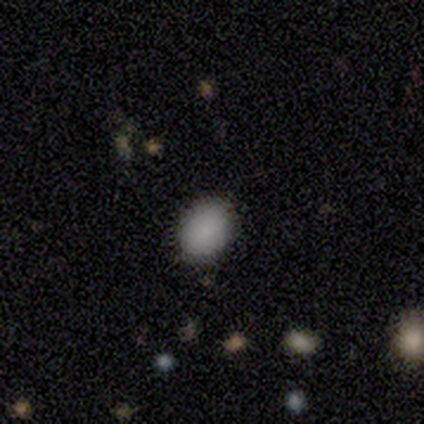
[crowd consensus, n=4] Overall: smooth (75%). How rounded: in between (100%). Merging: minor disturbance (67%; none 33%).